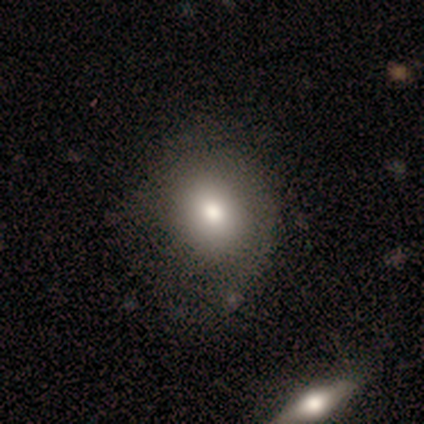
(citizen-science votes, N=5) A smooth galaxy with no disk features (80%) that is round (75%). Merging: none (60%).